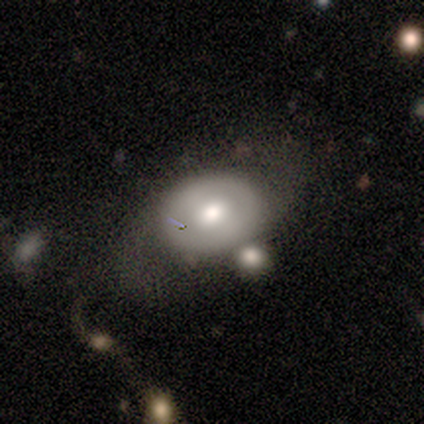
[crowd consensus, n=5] This appears to be a featured or disk galaxy (60%) with no bar (100%), no spiral arms (100%) and a moderate central bulge (100%). Merging: merger (40%).